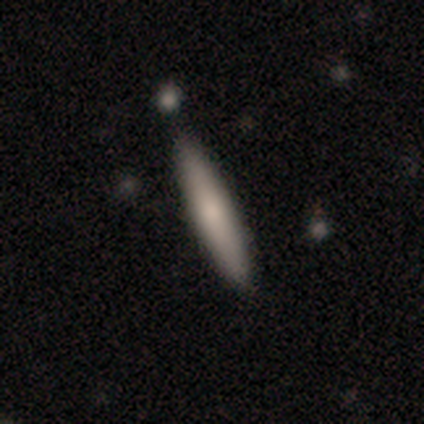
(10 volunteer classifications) A smooth galaxy with no disk features (80%) that is cigar-shaped (100%).

Vote fractions:
- Smooth or featured? smooth: 80% / featured or disk: 20% / star or artifact: 0%
- How rounded? cigar-shaped: 100% / round: 0% / in between: 0%
- Merging? none: 100% / minor disturbance: 0% / major disturbance: 0% / merger: 0%